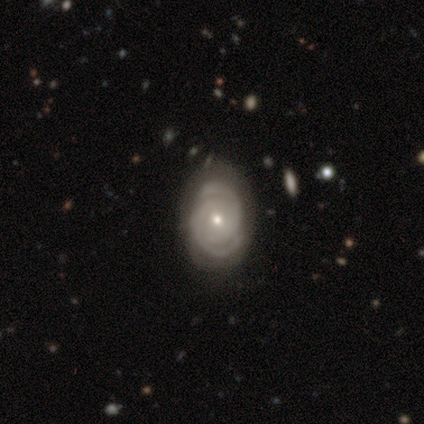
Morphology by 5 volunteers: Overall: featured or disk (80%). Edge-on disk: no (100%). Bar: no (75%). Spiral arms: yes (75%). Spiral arm count: 2 (100%). Spiral winding: tight (67%; medium 33%). Bulge size: small (75%). Merging: none (100%).